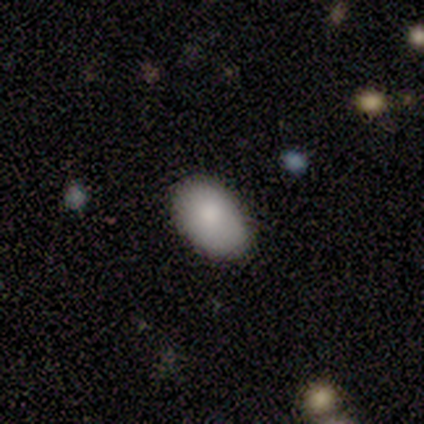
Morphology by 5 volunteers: Smooth or featured?
  - smooth: 80% *
  - featured or disk: 20%
  - star or artifact: 0%
How rounded?
  - in between: 100% *
  - round: 0%
  - cigar-shaped: 0%
Merging?
  - none: 100% *
  - minor disturbance: 0%
  - major disturbance: 0%
  - merger: 0%